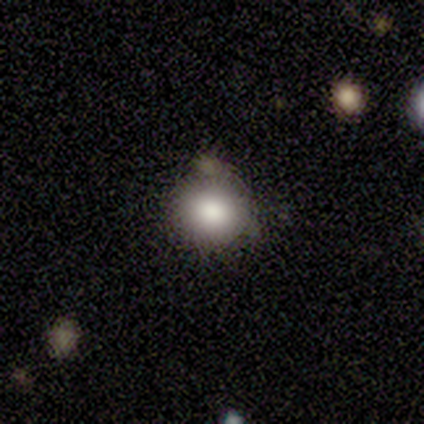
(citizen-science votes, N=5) smooth-or-featured: smooth: 60% | featured or disk: 40% | star or artifact: 0%
  how-rounded: round: 67% | in between: 33% | cigar-shaped: 0%
  merging: none: 40% (tied) | merger: 40% (tied) | minor disturbance: 20% | major disturbance: 0%